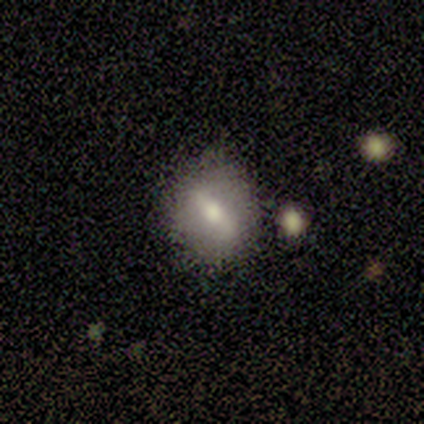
Overall: smooth (60%; featured or disk 40%). How rounded: round (67%; in between 33%). Merging: none (40%, tied with minor disturbance).